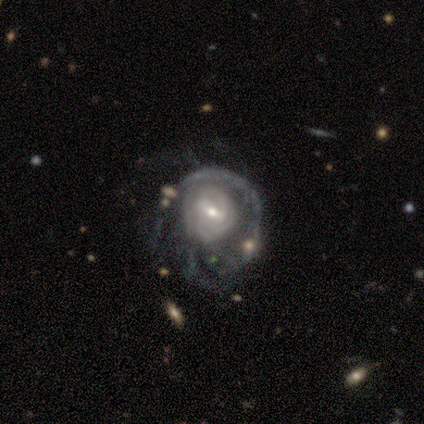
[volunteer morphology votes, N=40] Q: Smooth or featured?
A: featured or disk (85%); runner-up: smooth (15%)
Q: Edge-on disk?
A: no (94%); runner-up: yes (6%)
Q: Bar?
A: weak (69%); runner-up: strong (22%)
Q: Spiral arms?
A: yes (97%); runner-up: no (3%)
Q: Spiral winding?
A: tight (58%); runner-up: medium (35%)
Q: Spiral arm count?
A: can't tell (61%); runner-up: 2 (10%)
Q: Bulge size?
A: small (56%); runner-up: moderate (41%)
Q: Merging?
A: major disturbance (55%); runner-up: none (18%)